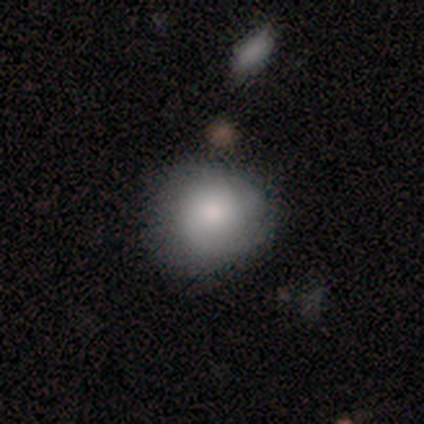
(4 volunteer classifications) A smooth galaxy with no disk features (100%) that is round (100%). Merging: none (75%).